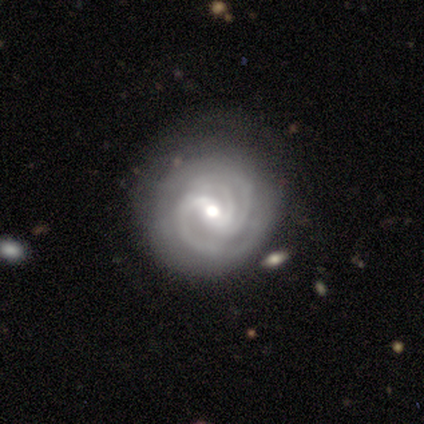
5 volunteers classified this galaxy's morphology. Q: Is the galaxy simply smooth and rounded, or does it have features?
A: featured or disk — 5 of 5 (100%).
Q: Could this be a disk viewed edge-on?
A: no — 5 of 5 (100%).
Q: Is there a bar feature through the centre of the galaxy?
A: weak — 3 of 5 (60%).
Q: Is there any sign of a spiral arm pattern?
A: yes — 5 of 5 (100%).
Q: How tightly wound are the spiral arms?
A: tight — 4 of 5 (80%).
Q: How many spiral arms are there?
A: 3 — 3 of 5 (60%).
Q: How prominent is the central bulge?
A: moderate — 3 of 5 (60%).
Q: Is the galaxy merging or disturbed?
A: none — 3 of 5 (60%).